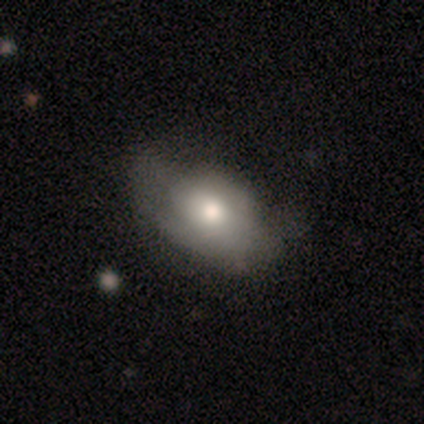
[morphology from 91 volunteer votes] Smooth or featured: smooth — 73% (featured or disk — 21%)
How rounded: in between — 85% (round — 15%)
Merging: none — 41% (major disturbance — 32%)